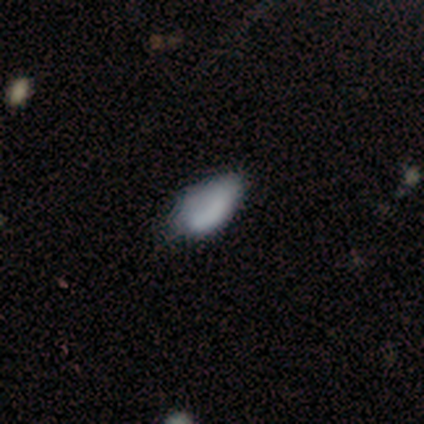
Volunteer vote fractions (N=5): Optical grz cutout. It shows a smooth galaxy with no disk features (40%, tied with featured or disk) that is in between round and cigar-shaped (100%). Merging: none (50%, tied with minor disturbance).